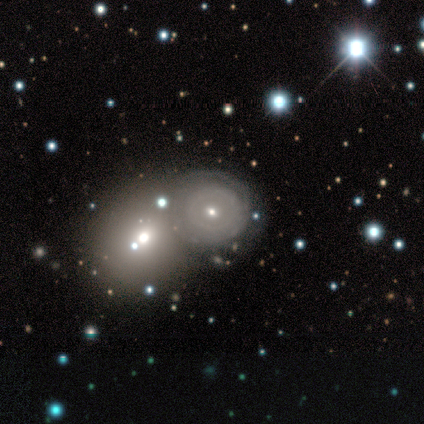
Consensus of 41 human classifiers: A featured or disk galaxy (68%) with no bar (77%), no spiral arms (54%) and a moderate central bulge (50%, tied with small). Merging: merger (53%).